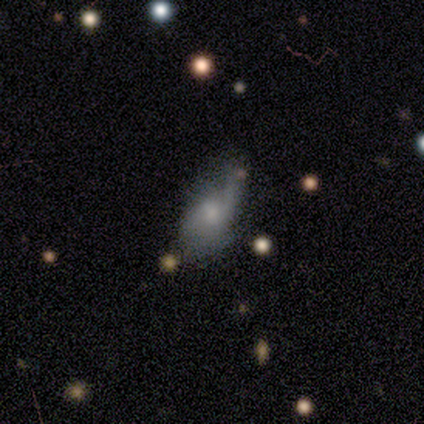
Morphology: type=featured or disk (80%); edge-on=no (100%); bar=weak (50%, tied with no); spiral arms=yes (100%); winding=loose (75%); arm count=2 (75%); bulge=moderate (100%); merging=none (60%).